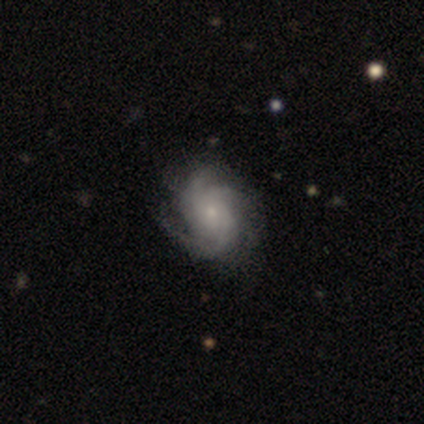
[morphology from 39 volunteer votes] type=featured or disk (87%); edge-on=no (100%); bar=no (85%); spiral arms=yes (97%); winding=tight (39%); arm count=3 (55%); bulge=small (76%); merging=none (69%).